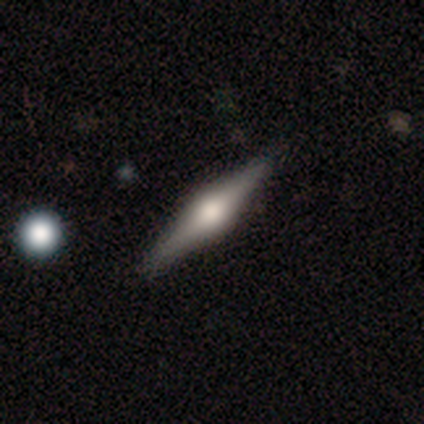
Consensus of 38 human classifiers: Smooth or featured: featured or disk — 89% (smooth — 8%)
Edge-on disk: yes — 100%
Edge-on bulge: rounded — 100%
Merging: none — 92% (minor disturbance — 5%)